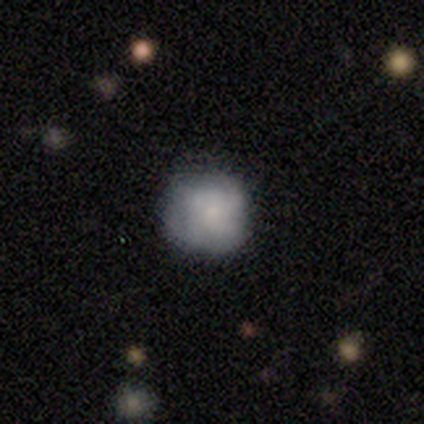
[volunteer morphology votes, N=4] A featured or disk galaxy (75%) with no bar (100%), tight (33%, tied with medium and loose) spiral arms (100%) and a small central bulge (67%).

Vote fractions:
- Smooth or featured? featured or disk: 75% / smooth: 25% / star or artifact: 0%
- Edge-on disk? no: 100% / yes: 0%
- Bar? no: 100% / strong: 0% / weak: 0%
- Spiral arms? yes: 100% / no: 0%
- Spiral winding? tight: 33% (tied) / medium: 33% (tied) / loose: 33% (tied)
- Spiral arm count? can't tell: 67% / 2: 33% / 1: 0% / 3: 0% / 4: 0% / more than 4: 0%
- Bulge size? small: 67% / none: 33% / dominant: 0% / large: 0% / moderate: 0%
- Merging? none: 75% / major disturbance: 25% / minor disturbance: 0% / merger: 0%